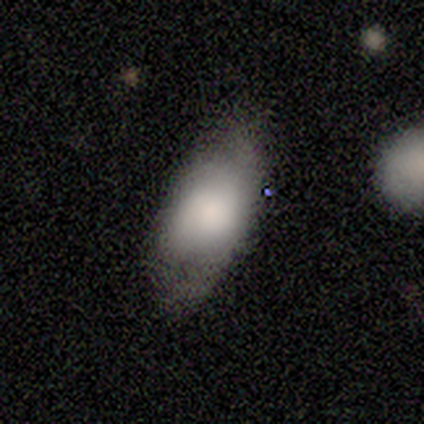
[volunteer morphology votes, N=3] This is likely a smooth galaxy (67%). How rounded: clearly in between (100%). Merging: likely minor disturbance (67%).